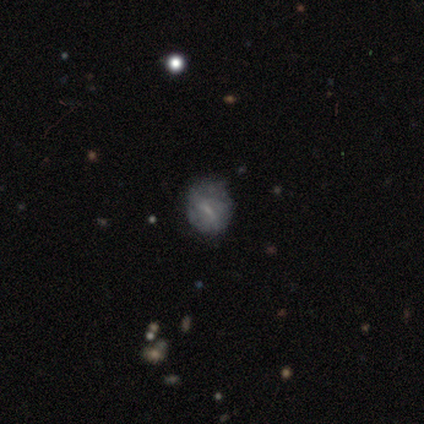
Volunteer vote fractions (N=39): Morphology: type=featured or disk (54%); edge-on=no (95%); bar=weak (50%); spiral arms=yes (50%, tied with no); winding=tight (50%); arm count=can't tell (60%); bulge=small (70%); merging=none (56%).